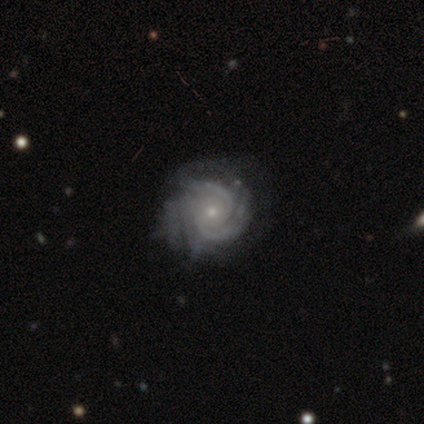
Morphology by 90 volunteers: Smooth or featured? featured or disk (92%)
Edge-on disk? no (98%)
Bar? no (68%)
Spiral arms? yes (98%)
Spiral winding? tight (77%)
Spiral arm count? 2 (28%)
Bulge size? small (81%)
Merging? none (61%)